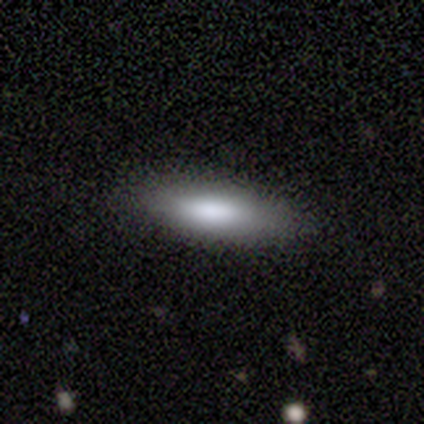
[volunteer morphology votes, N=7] smooth 71%, featured or disk 29%, star or artifact 0%. Down the decision tree: how rounded — in between (60%); merging — none (86%).